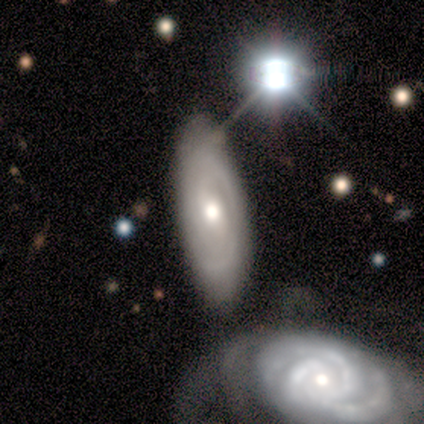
Smooth or featured: featured or disk — 76% (smooth — 17%)
Edge-on disk: no — 94% (yes — 6%)
Bar: weak — 53% (no — 40%)
Spiral arms: yes — 90% (no — 10%)
Spiral winding: tight — 56% (medium — 37%)
Spiral arm count: 2 — 63% (1 — 22%)
Bulge size: moderate — 67% (large — 20%)
Merging: none — 67% (minor disturbance — 21%)